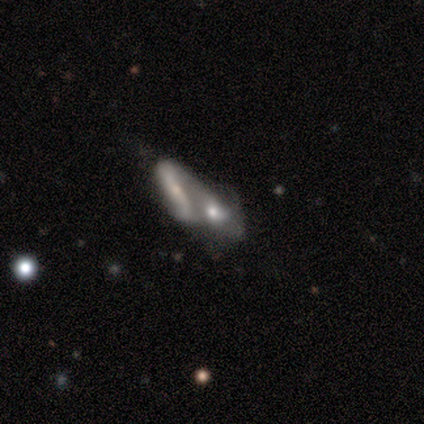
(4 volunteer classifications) This appears to be a featured or disk galaxy (75%) with a strong bar (33%, tied with weak and no), 1 (50%, tied with 2) loose (100%) spiral arms (67%) and a small central bulge (67%). Merging: merger (50%).